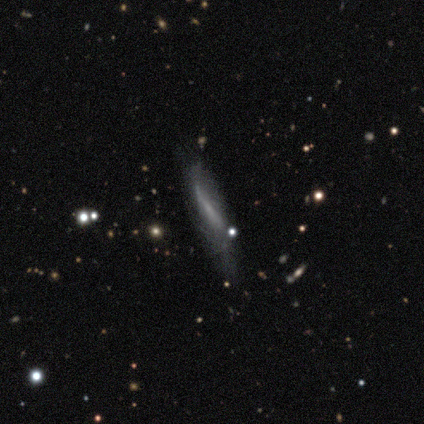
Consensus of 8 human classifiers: smooth 62%, featured or disk 38%, star or artifact 0%. Down the decision tree: how rounded — cigar-shaped (100%); merging — none (38%, tied with minor disturbance).